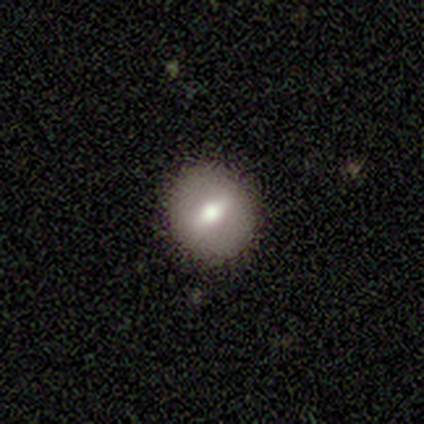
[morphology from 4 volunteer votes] smooth_or_featured: smooth (p=0.50) [tied with: featured or disk p=0.50]
how_rounded: round (p=1.00)
merging: none (p=1.00)